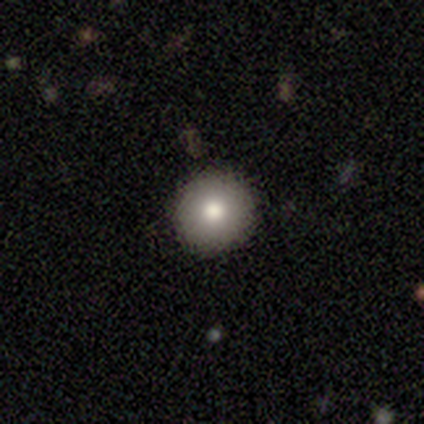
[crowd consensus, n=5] Smooth or featured?
  - smooth: 80% *
  - featured or disk: 20%
  - star or artifact: 0%
How rounded?
  - round: 100% *
  - in between: 0%
  - cigar-shaped: 0%
Merging?
  - none: 100% *
  - minor disturbance: 0%
  - major disturbance: 0%
  - merger: 0%